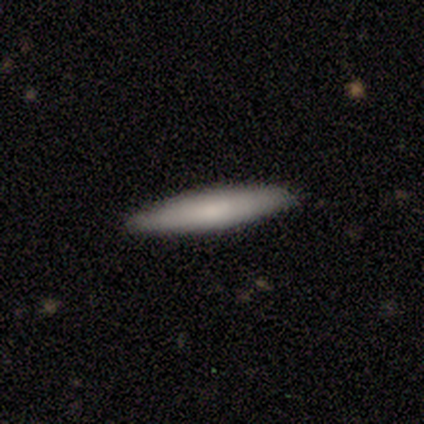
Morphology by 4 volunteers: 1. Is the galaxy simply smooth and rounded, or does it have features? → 75% smooth, 25% featured or disk, 0% star or artifact.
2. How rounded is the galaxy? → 67% cigar-shaped, 33% in between, 0% round.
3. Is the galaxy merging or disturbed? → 100% none, 0% minor disturbance, 0% major disturbance, 0% merger.